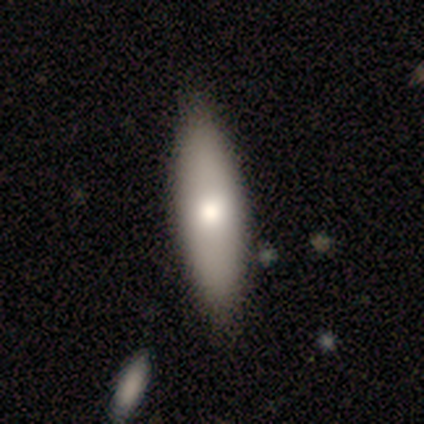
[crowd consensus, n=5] Smooth or featured?
  - smooth: 60% *
  - featured or disk: 40%
  - star or artifact: 0%
How rounded?
  - cigar-shaped: 67% *
  - in between: 33%
  - round: 0%
Merging?
  - none: 100% *
  - minor disturbance: 0%
  - major disturbance: 0%
  - merger: 0%